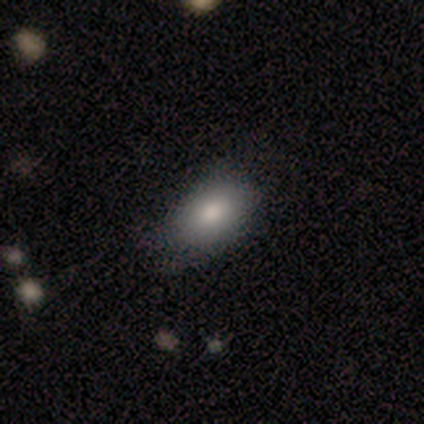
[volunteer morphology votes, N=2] Consensus on every question: smooth or featured — smooth (100%); how rounded — in between (100%); merging — none (100%).